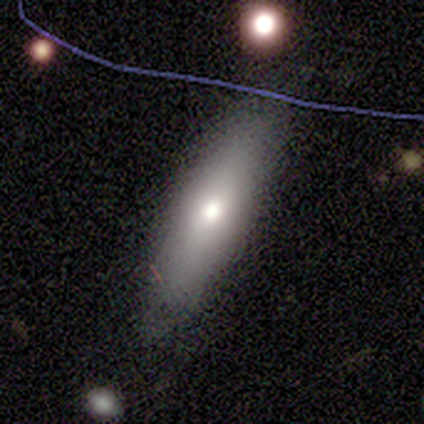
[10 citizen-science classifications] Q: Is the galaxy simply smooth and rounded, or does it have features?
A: smooth — 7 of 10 (70%).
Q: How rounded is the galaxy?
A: cigar-shaped — 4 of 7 (57%).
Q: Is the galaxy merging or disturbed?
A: none — 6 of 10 (60%).